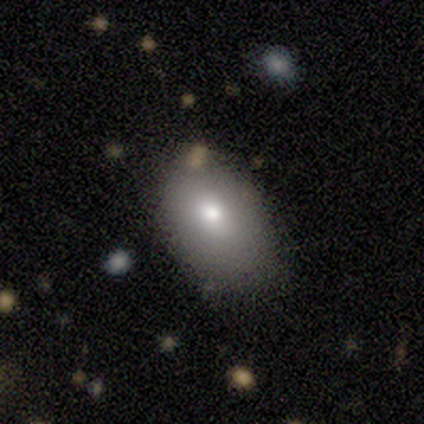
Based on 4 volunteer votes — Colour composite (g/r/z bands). It shows a smooth galaxy with no disk features (75%) that is in between round and cigar-shaped (100%). Merging: minor disturbance (75%).